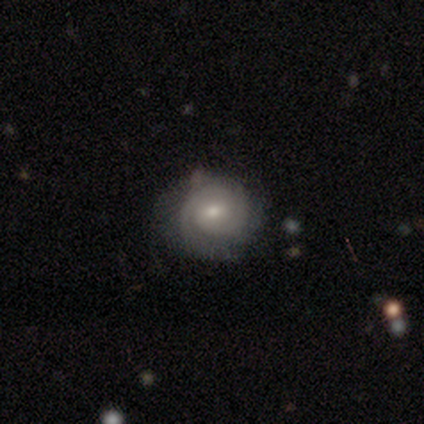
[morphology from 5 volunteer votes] featured or disk 100%, smooth 0%, star or artifact 0%. Down the decision tree: edge-on disk — no (100%); bar — no (60%); spiral arms — yes (80%); spiral arm count — 1 (50%); spiral winding — tight (100%); bulge size — small (60%); merging — none (60%).